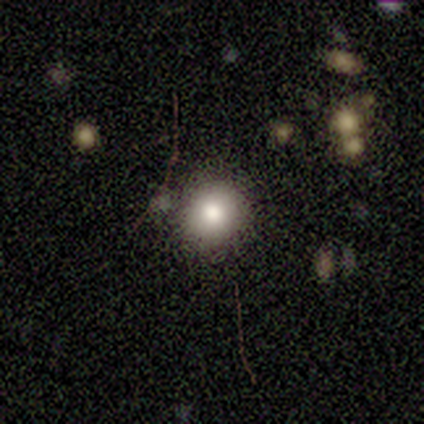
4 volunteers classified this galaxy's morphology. Q: Smooth or featured?
A: smooth (75%); runner-up: featured or disk (25%)
Q: How rounded?
A: round (100%)
Q: Merging?
A: minor disturbance (75%); runner-up: none (25%)